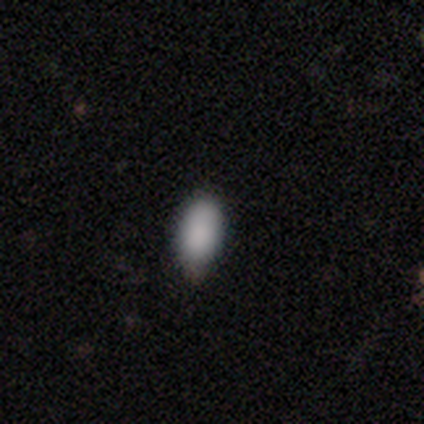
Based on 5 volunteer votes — Smooth or featured? 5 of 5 (100%) said smooth. How rounded? 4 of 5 (80%) said in between. Merging? 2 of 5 (40%, tied with minor disturbance) said none.